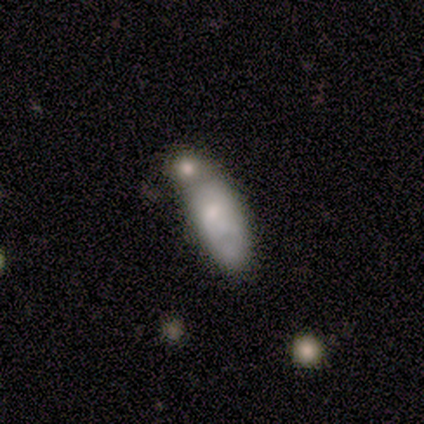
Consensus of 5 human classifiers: smooth_or_featured: smooth (p=0.60) [alt: featured or disk p=0.40]
how_rounded: in between (p=0.67) [alt: cigar-shaped p=0.33]
merging: none (p=0.40) [tied with: minor disturbance p=0.40]